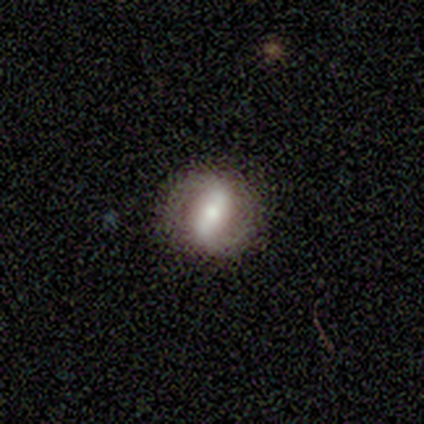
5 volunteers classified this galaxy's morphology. type=featured or disk (80%); edge-on=no (100%); bar=strong (50%); spiral arms=yes (100%); winding=medium (75%); arm count=2 (100%); bulge=moderate (50%, tied with small); merging=none (100%).